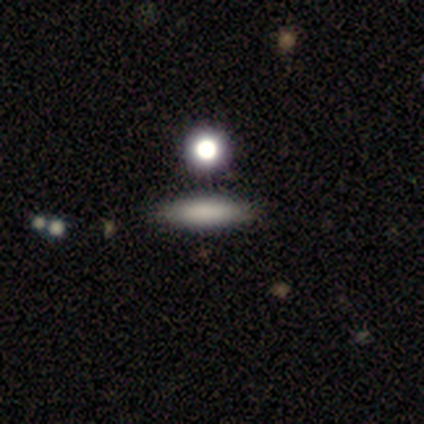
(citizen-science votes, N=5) smooth 60%, star or artifact 40%, featured or disk 0%. Down the decision tree: how rounded — in between (67%); merging — none (67%).